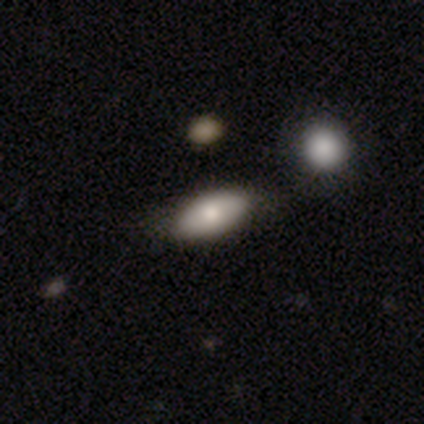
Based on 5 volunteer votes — This is clearly a smooth galaxy (80%). How rounded: clearly in between (100%). Merging: likely none (60%).